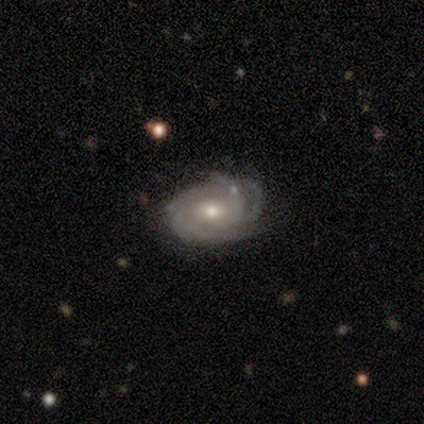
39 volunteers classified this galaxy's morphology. featured or disk 90%, star or artifact 10%, smooth 0%. Down the decision tree: edge-on disk — no (97%); bar — no (71%); spiral arms — yes (100%); spiral arm count — 3 (44%); spiral winding — tight (68%); bulge size — moderate (53%); merging — none (63%).